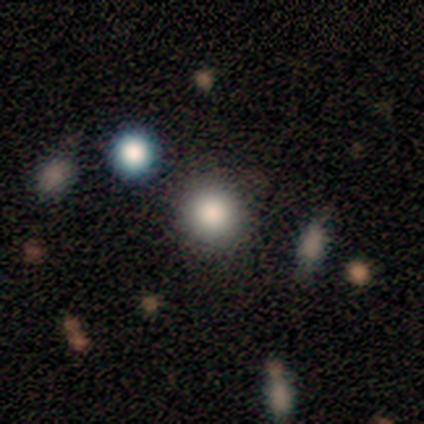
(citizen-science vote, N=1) A smooth galaxy with no disk features (100%) that is round (100%). Merging: none (100%).